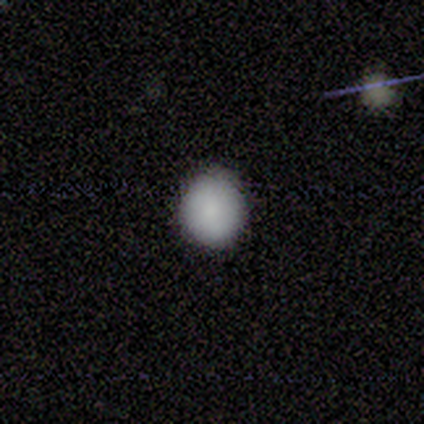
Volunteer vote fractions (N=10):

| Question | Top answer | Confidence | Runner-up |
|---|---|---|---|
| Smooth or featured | smooth | 80% | featured or disk (10%) |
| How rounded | round | 88% | in between (12%) |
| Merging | none | 67% | minor disturbance (33%) |